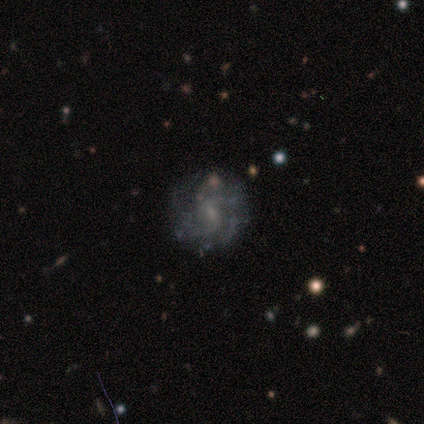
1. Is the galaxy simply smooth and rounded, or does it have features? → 100% featured or disk, 0% smooth, 0% star or artifact.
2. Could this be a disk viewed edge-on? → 100% no, 0% yes.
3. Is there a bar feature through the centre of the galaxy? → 80% weak, 20% strong, 0% no.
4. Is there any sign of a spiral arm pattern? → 100% yes, 0% no.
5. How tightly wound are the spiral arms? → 60% tight, 40% medium, 0% loose.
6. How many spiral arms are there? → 60% can't tell, 40% 4, 0% 1, 0% 2, 0% 3, 0% more than 4.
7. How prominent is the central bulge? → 60% small, 20% moderate, 20% none, 0% dominant, 0% large.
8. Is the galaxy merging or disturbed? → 60% none, 20% minor disturbance, 20% major disturbance, 0% merger.